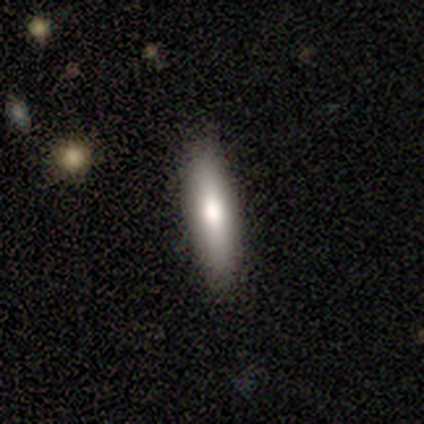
Morphology: type=smooth (80%); roundness=cigar-shaped (75%); merging=none (60%).